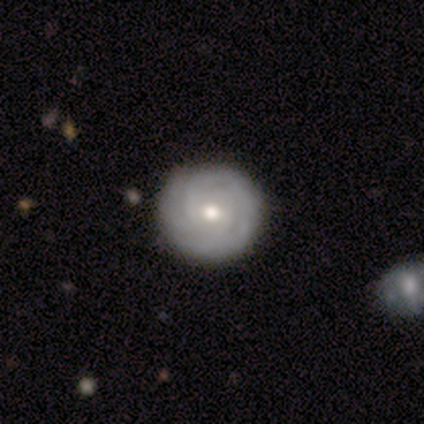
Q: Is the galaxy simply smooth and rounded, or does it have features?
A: featured or disk — 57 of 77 (74%).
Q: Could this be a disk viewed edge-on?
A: no — 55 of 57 (96%).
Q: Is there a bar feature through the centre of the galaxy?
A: no — 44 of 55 (80%).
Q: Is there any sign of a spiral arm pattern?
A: yes — 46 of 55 (84%).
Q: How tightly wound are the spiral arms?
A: tight — 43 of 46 (93%).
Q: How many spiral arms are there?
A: can't tell — 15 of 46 (33%).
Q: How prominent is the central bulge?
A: moderate — 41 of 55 (75%).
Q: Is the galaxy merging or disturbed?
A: none — 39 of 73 (53%).